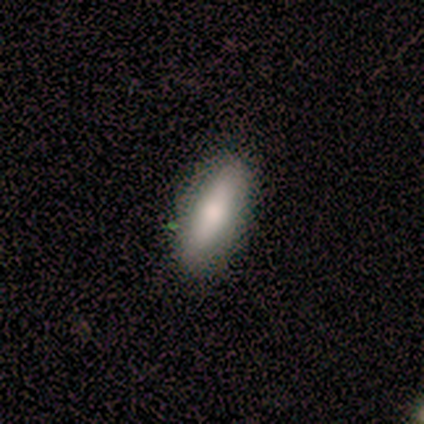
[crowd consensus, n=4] A smooth galaxy with no disk features (100%) that is in between round and cigar-shaped (75%).

Vote fractions:
- Smooth or featured? smooth: 100% / featured or disk: 0% / star or artifact: 0%
- How rounded? in between: 75% / cigar-shaped: 25% / round: 0%
- Merging? none: 100% / minor disturbance: 0% / major disturbance: 0% / merger: 0%